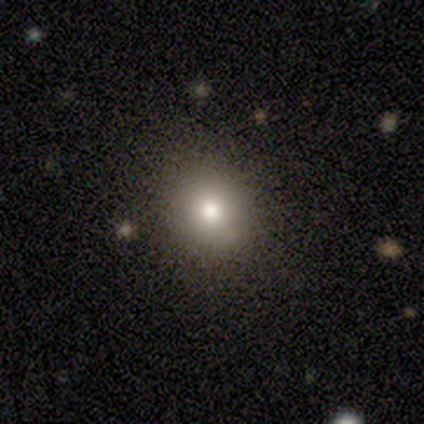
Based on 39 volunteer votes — smooth-or-featured: smooth: 74% | featured or disk: 13% | star or artifact: 13%
  how-rounded: round: 83% | in between: 17% | cigar-shaped: 0%
  merging: none: 68% | major disturbance: 3% | minor disturbance: 0% | merger: 0%